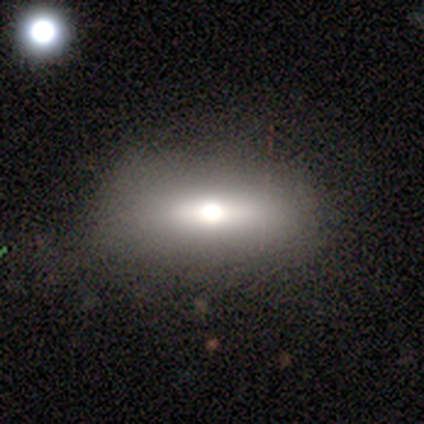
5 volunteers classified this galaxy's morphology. Smooth or featured?
  - smooth: 80% *
  - featured or disk: 20%
  - star or artifact: 0%
How rounded?
  - round: 50% * (tied)
  - in between: 50% * (tied)
  - cigar-shaped: 0%
Merging?
  - none: 80% *
  - major disturbance: 20%
  - minor disturbance: 0%
  - merger: 0%